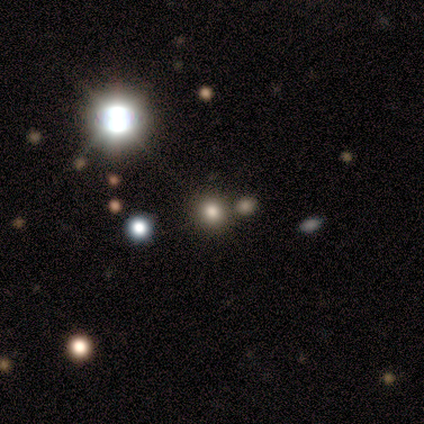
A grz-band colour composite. It shows a smooth galaxy with no disk features (57%) that is round (96%). Merging: none (60%).